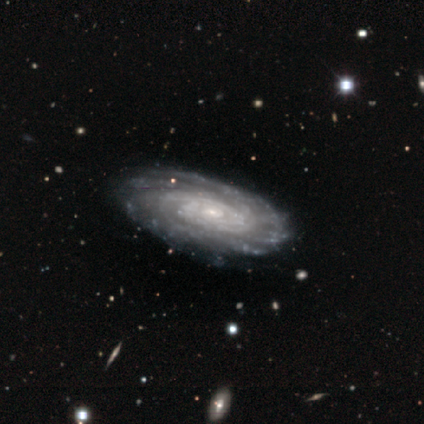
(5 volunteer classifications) Overall: featured or disk (100%). Edge-on disk: no (100%). Bar: strong (40%, tied with no). Spiral arms: yes (100%). Spiral arm count: 3 (60%; 2 20%). Spiral winding: tight (60%; medium 40%). Bulge size: small (60%; large 20%). Merging: none (80%).